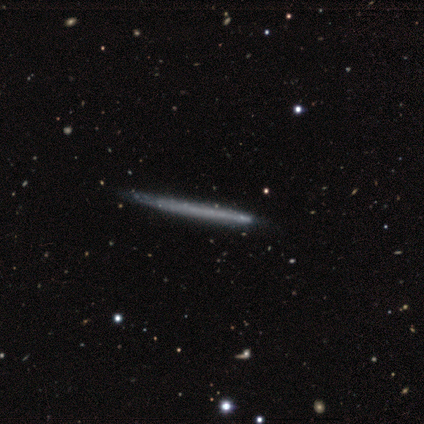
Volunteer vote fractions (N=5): Q: Smooth or featured?
A: featured or disk (80%); runner-up: smooth (20%)
Q: Edge-on disk?
A: yes (75%); runner-up: no (25%)
Q: Edge-on bulge?
A: none (100%)
Q: Merging?
A: minor disturbance (60%); runner-up: none (40%)